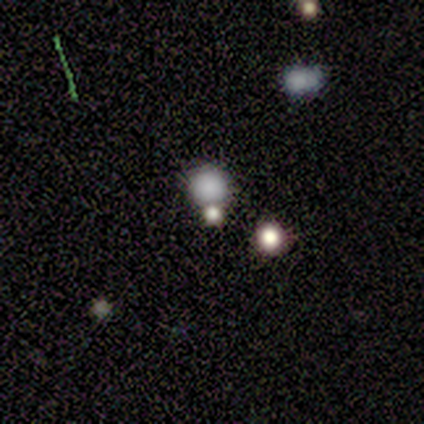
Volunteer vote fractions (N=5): This appears to be a smooth galaxy with no disk features (80%) that is round (100%). Merging: none (75%).